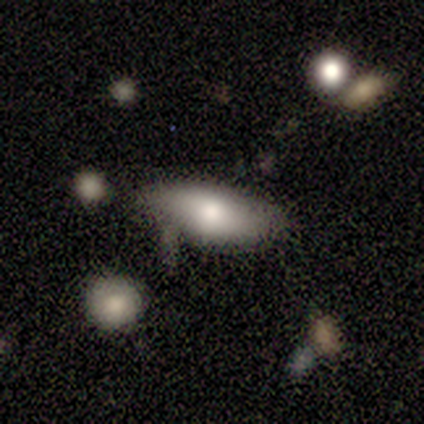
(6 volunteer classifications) Volunteers were most divided on "smooth or featured": smooth: 50%, featured or disk: 33%, star or artifact: 17%. More confident: how rounded — in between (100%); merging — none (100%).